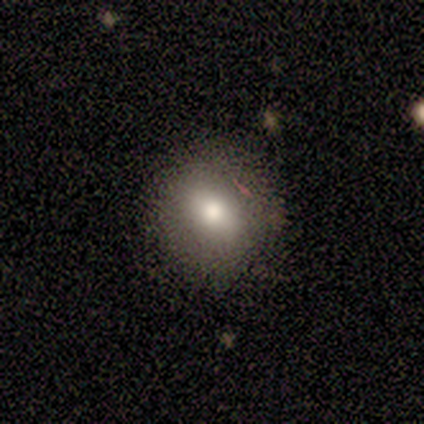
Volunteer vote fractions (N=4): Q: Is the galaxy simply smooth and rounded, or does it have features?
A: smooth — 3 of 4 (75%).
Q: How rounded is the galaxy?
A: round — 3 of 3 (100%).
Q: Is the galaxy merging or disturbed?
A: none — 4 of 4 (100%).